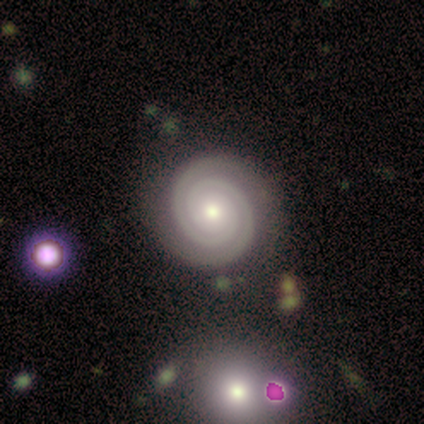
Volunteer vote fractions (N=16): This is clearly a featured or disk galaxy (94%). It is clearly not viewed edge-on (93%). Bar: clearly no (86%). Spiral arm pattern: clearly yes (100%). Spiral arm count: clearly 2 (93%). Spiral winding: clearly tight (100%). Central bulge: likely moderate (71%). Merging: clearly none (88%).